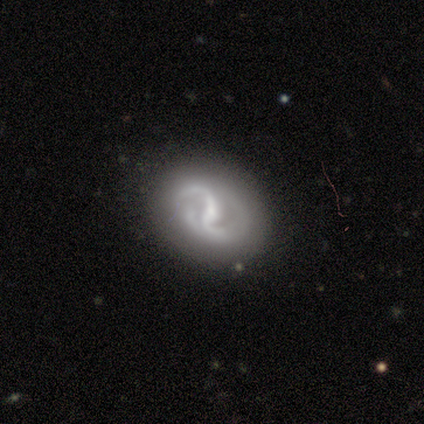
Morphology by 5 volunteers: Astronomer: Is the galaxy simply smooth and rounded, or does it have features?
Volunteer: featured or disk — 80%.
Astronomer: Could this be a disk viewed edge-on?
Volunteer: no — 100%.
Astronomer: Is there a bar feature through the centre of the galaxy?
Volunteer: strong — 50%, tied with no at 50%.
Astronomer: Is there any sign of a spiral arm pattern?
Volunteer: yes — 75%.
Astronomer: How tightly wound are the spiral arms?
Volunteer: loose — 67%.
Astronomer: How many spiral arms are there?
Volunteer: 2 — 67%.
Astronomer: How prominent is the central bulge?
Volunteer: moderate — 75%.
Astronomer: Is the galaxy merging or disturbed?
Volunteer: none — 100%.